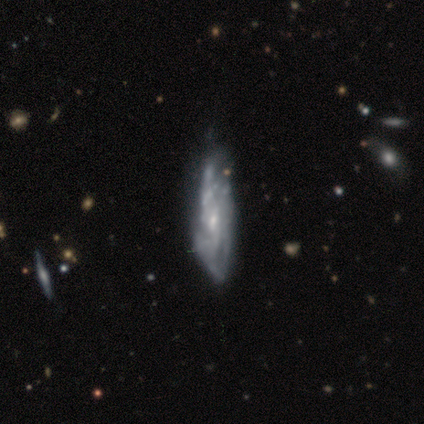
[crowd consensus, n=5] Smooth or featured: featured or disk — 80% (star or artifact — 20%)
Edge-on disk: no — 100%
Bar: weak — 75% (no — 25%)
Spiral arms: yes — 75% (no — 25%)
Spiral winding: medium — 100%
Spiral arm count: 2 — 67% (can't tell — 33%)
Bulge size: small — 50% (moderate — 25%)
Merging: none — 50% (tied with minor disturbance — 50%)